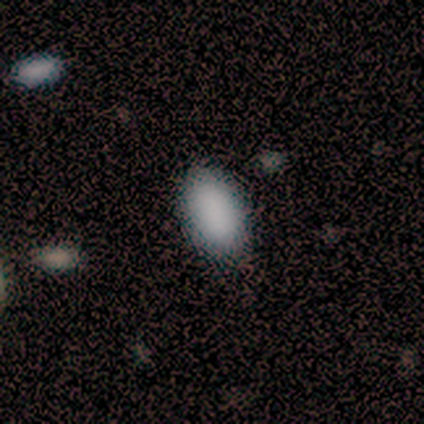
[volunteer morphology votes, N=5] A smooth galaxy with no disk features (100%) that is in between round and cigar-shaped (100%).

Vote fractions:
- Smooth or featured? smooth: 100% / featured or disk: 0% / star or artifact: 0%
- How rounded? in between: 100% / round: 0% / cigar-shaped: 0%
- Merging? none: 100% / minor disturbance: 0% / major disturbance: 0% / merger: 0%